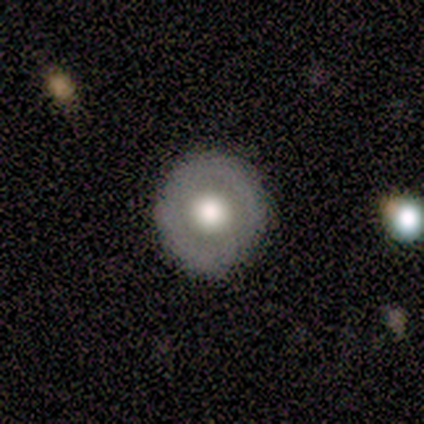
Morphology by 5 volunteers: Q: Smooth or featured?
A: smooth (40%); tied with: featured or disk (40%)
Q: How rounded?
A: round (100%)
Q: Merging?
A: none (100%)